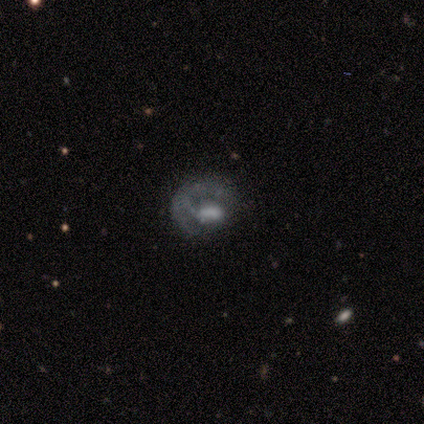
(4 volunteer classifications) smooth 50% (tied), featured or disk 50% (tied), star or artifact 0%. Down the decision tree: how rounded — round (100%); merging — none (50%).